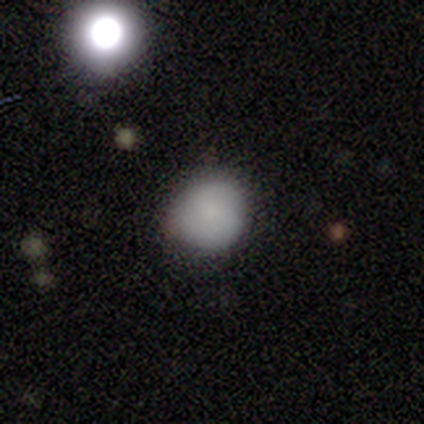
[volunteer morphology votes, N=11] Overall: smooth (91%). How rounded: round (90%). Merging: none (91%).